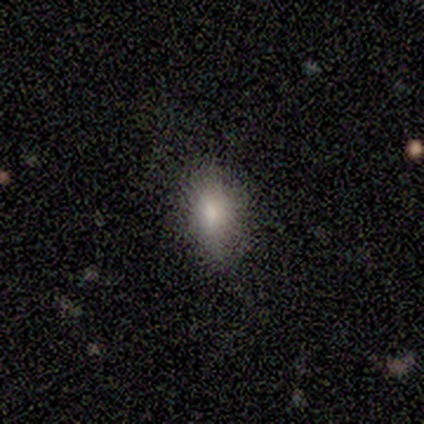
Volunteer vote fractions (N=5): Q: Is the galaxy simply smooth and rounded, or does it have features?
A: smooth — 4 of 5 (80%).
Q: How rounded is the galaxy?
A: in between — 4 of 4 (100%).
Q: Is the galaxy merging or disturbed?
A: none — 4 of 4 (100%).